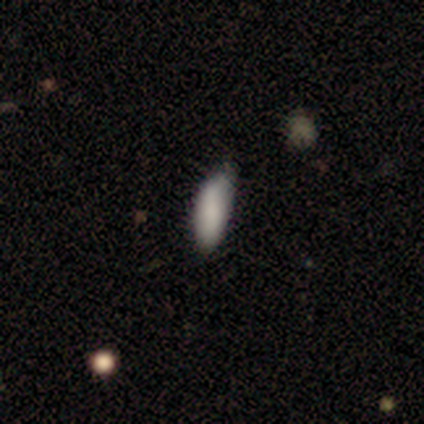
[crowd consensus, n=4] smooth-or-featured: smooth: 75% | featured or disk: 25% | star or artifact: 0%
  how-rounded: in between: 67% | cigar-shaped: 33% | round: 0%
  merging: minor disturbance: 50% | none: 25% | major disturbance: 25% | merger: 0%